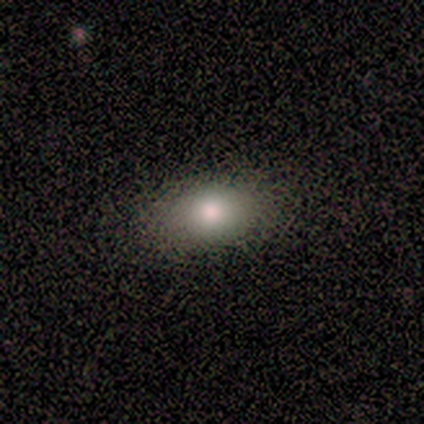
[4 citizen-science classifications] Q: Smooth or featured?
A: smooth (100%)
Q: How rounded?
A: in between (75%); runner-up: round (25%)
Q: Merging?
A: none (100%)